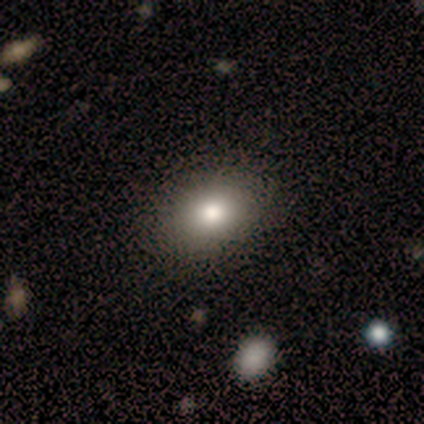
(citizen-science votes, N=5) Smooth or featured: smooth — 80% (star or artifact — 20%)
How rounded: in between — 100%
Merging: none — 100%